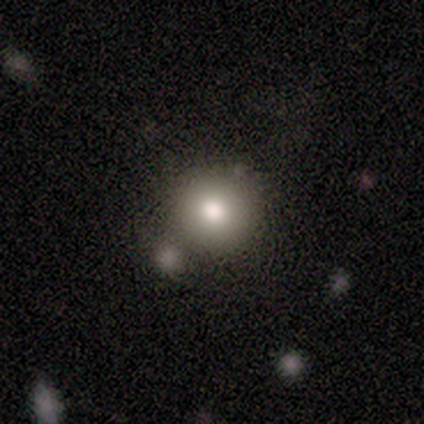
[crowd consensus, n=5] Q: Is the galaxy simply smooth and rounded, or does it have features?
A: smooth — 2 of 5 (40%, tied with star or artifact).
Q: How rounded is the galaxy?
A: round — 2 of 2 (100%).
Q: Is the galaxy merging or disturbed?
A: none — 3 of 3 (100%).